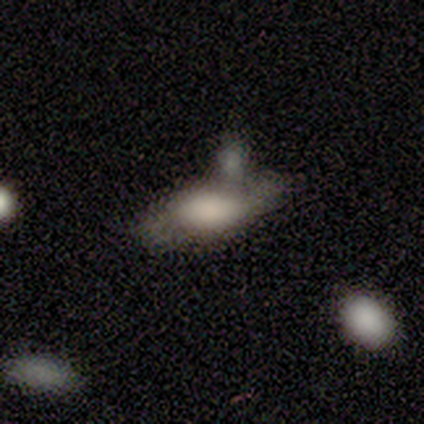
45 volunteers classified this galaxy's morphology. Smooth or featured: smooth — 51% (featured or disk — 44%)
How rounded: in between — 83% (cigar-shaped — 17%)
Merging: none — 35% (tied with merger — 35%)